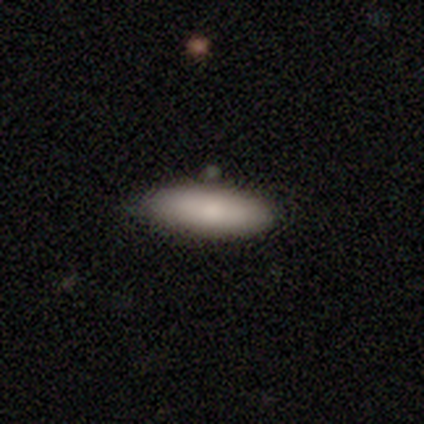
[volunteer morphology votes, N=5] Q: Smooth or featured?
A: smooth (80%); runner-up: featured or disk (20%)
Q: How rounded?
A: in between (100%)
Q: Merging?
A: none (100%)